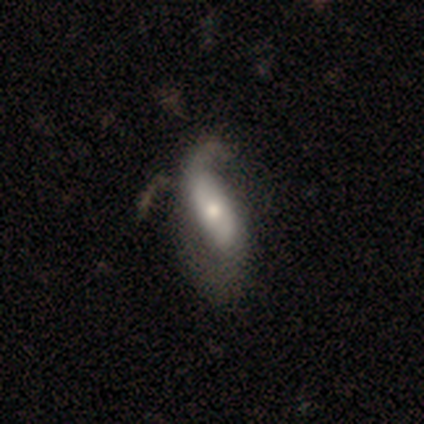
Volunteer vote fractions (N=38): This appears to be a featured or disk galaxy (58%) with no bar (62%), 2 (62%) loose (75%) spiral arms (76%) and a moderate central bulge (67%). Merging: major disturbance (25%).